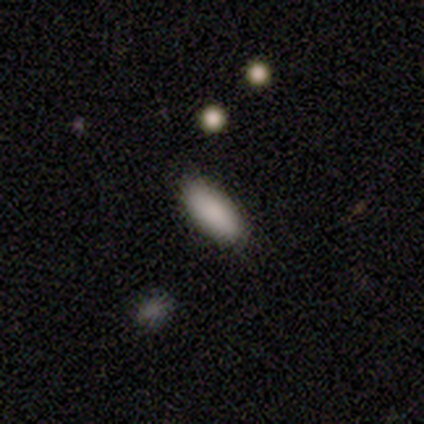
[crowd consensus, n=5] Smooth or featured: smooth — 80% (featured or disk — 20%)
How rounded: in between — 75% (cigar-shaped — 25%)
Merging: none — 80% (major disturbance — 20%)